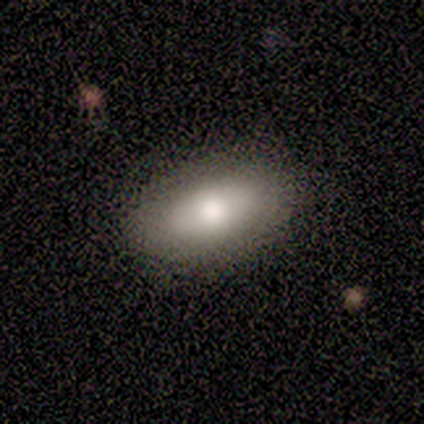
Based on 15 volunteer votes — This appears to be a smooth galaxy with no disk features (93%) that is in between round and cigar-shaped (100%). Merging: none (93%).